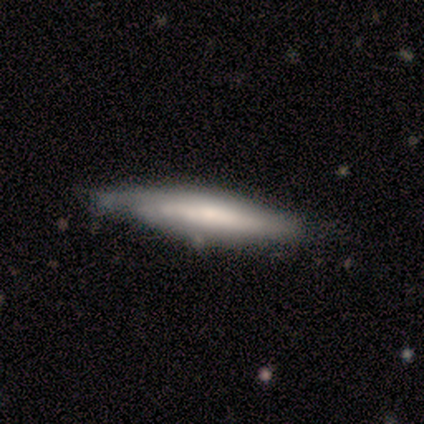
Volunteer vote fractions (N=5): This appears to be a featured or disk galaxy (80%) viewed edge-on (75%) with a rounded central bulge (67%). Merging: none (60%).